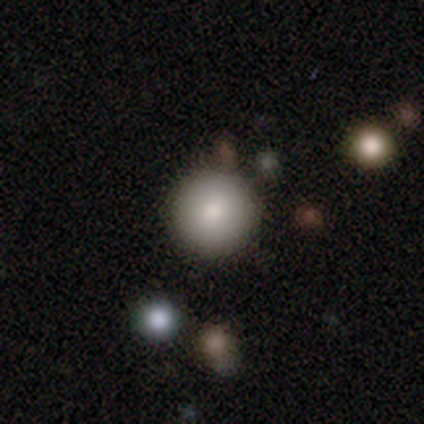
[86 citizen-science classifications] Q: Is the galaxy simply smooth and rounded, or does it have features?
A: smooth — 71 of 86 (83%).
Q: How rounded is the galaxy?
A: round — 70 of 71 (99%).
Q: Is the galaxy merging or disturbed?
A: none — 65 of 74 (88%).